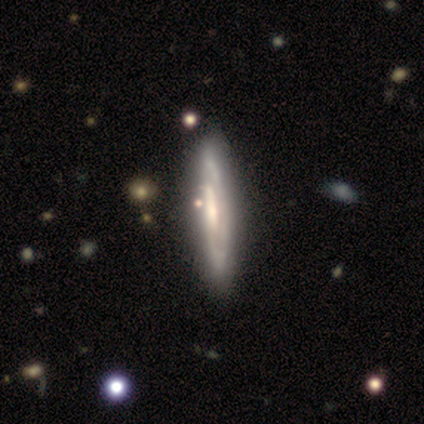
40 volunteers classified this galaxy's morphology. This is clearly a featured or disk galaxy (88%). It is possibly viewed edge-on (57%). Edge-on bulge: possibly none (50%). Merging: likely none (62%).